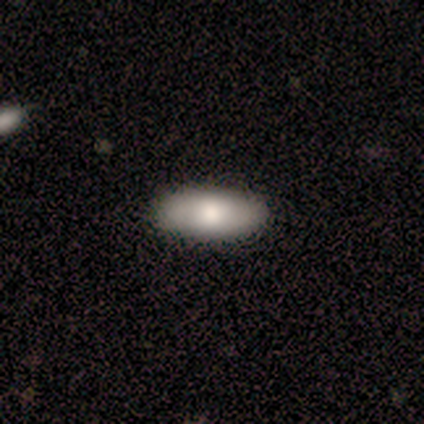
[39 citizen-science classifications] A smooth galaxy with no disk features (72%) that is in between round and cigar-shaped (82%).

Vote fractions:
- Smooth or featured? smooth: 72% / featured or disk: 23% / star or artifact: 5%
- How rounded? in between: 82% / cigar-shaped: 18% / round: 0%
- Merging? none: 59% / minor disturbance: 5% / merger: 3% / major disturbance: 0%